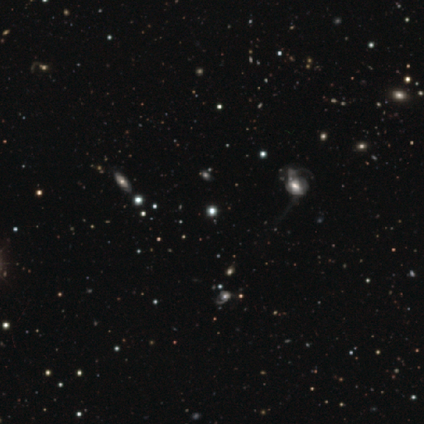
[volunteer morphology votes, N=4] Volunteers were most divided on "smooth or featured" (2-way tie): smooth: 50%, star or artifact: 50%, featured or disk: 0%; "how rounded" (2-way tie): round: 50%, in between: 50%, cigar-shaped: 0%; "merging" (2-way tie): none: 50%, major disturbance: 50%, minor disturbance: 0%, merger: 0%.